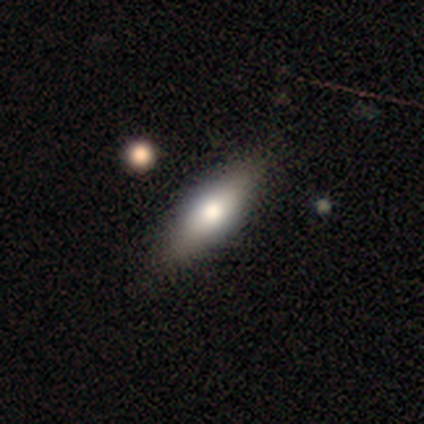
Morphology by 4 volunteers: A smooth galaxy with no disk features (75%) that is cigar-shaped (67%). Merging: none (100%).